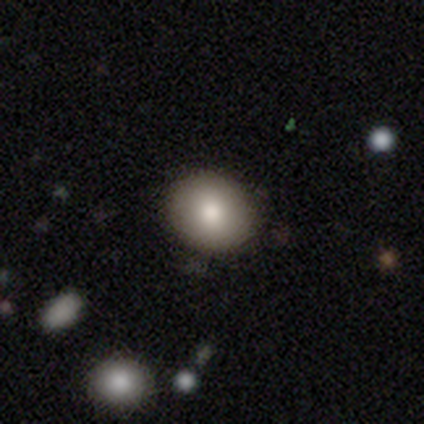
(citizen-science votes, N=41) smooth_or_featured: smooth (p=0.76) [alt: featured or disk p=0.17]
how_rounded: round (p=0.74) [alt: in between p=0.26]
merging: none (p=0.95) [alt: minor disturbance p=0.05]